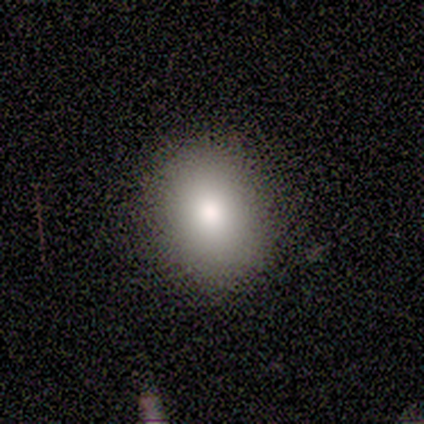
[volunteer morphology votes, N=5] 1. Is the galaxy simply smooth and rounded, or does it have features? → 100% smooth, 0% featured or disk, 0% star or artifact.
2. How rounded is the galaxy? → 80% in between, 20% round, 0% cigar-shaped.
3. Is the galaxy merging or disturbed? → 80% none, 20% major disturbance, 0% minor disturbance, 0% merger.